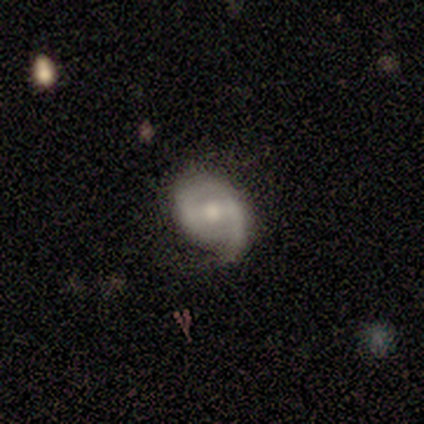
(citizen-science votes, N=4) smooth-or-featured: featured or disk: 100% | smooth: 0% | star or artifact: 0%
  disk-edge-on: no: 100% | yes: 0%
    bar: strong: 50% | weak: 25% | no: 25%
    has-spiral-arms: yes: 100% | no: 0%
      spiral-winding: medium: 50% | tight: 25% | loose: 25%
      spiral-arm-count: 2: 50% | 1: 25% | can't tell: 25% | 3: 0% | 4: 0% | more than 4: 0%
    bulge-size: moderate: 100% | dominant: 0% | large: 0% | small: 0% | none: 0%
  merging: none: 100% | minor disturbance: 0% | major disturbance: 0% | merger: 0%